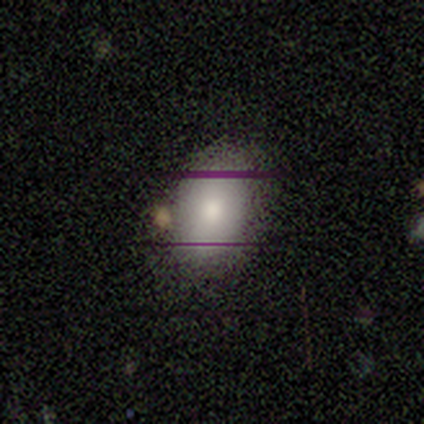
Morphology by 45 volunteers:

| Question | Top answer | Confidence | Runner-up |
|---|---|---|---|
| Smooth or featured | smooth | 80% | featured or disk (13%) |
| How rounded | in between | 83% | round (17%) |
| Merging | none | 79% | minor disturbance (14%) |